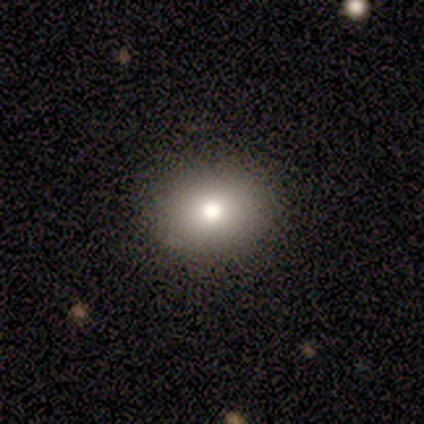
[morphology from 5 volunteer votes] Smooth or featured? smooth (80%)
How rounded? round (50%, tied with in between)
Merging? none (80%)